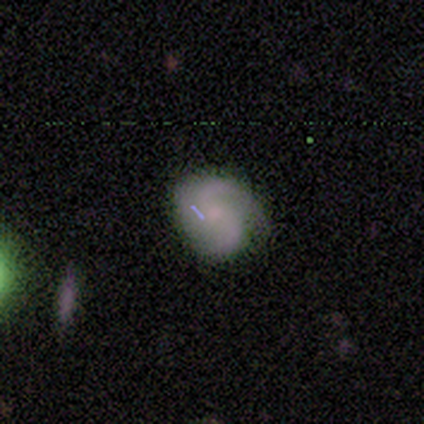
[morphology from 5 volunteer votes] This is clearly a featured or disk galaxy (100%). It is clearly not viewed edge-on (100%). Bar: likely no (60%). Spiral arm pattern: clearly yes (100%). Spiral arm count: clearly 2 (80%). Spiral winding: clearly loose (80%). Central bulge: clearly small (80%). Merging: likely minor disturbance (60%).